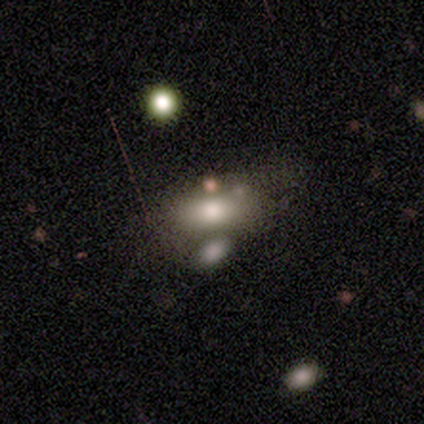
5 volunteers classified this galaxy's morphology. type=smooth (60%); roundness=in between (100%); merging=none (60%).